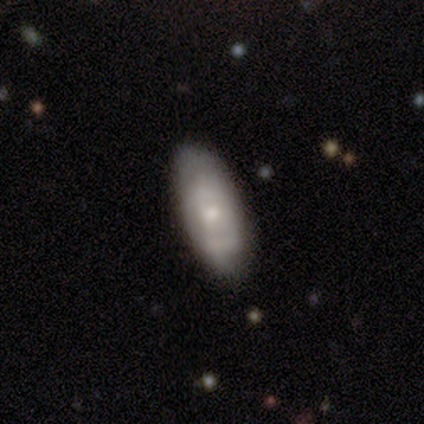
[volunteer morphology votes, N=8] This is likely a featured or disk galaxy (75%). It is clearly not viewed edge-on (100%). Bar: clearly no (83%). Spiral arm pattern: possibly yes (50%, tied with no). Spiral arm count: likely 2 (67%). Spiral winding: likely tight (67%). Central bulge: likely small (67%). Merging: clearly none (100%).